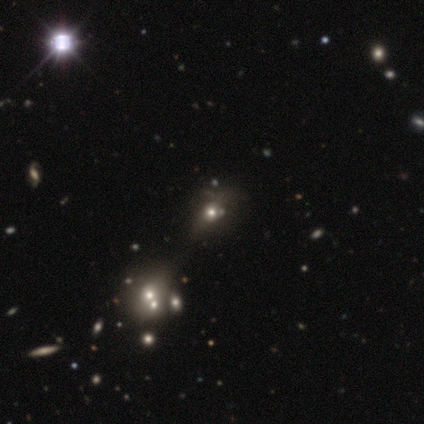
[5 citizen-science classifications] Volunteers were most divided on "smooth or featured" (2-way tie): smooth: 40%, star or artifact: 40%, featured or disk: 20%. More confident: how rounded — round (100%); merging — minor disturbance (67%).